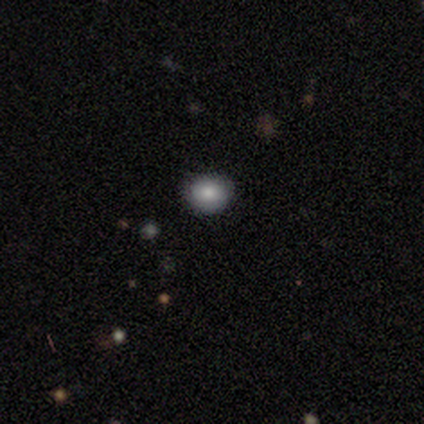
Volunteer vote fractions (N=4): Smooth or featured: smooth — 50% (tied with star or artifact — 50%)
How rounded: round — 50% (tied with in between — 50%)
Merging: none — 100%